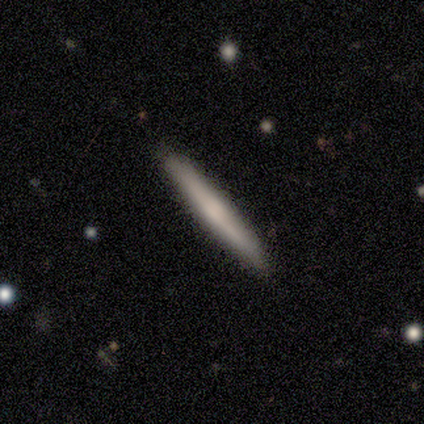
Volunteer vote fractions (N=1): smooth 100%, featured or disk 0%, star or artifact 0%. Down the decision tree: how rounded — cigar-shaped (100%); merging — none (100%).